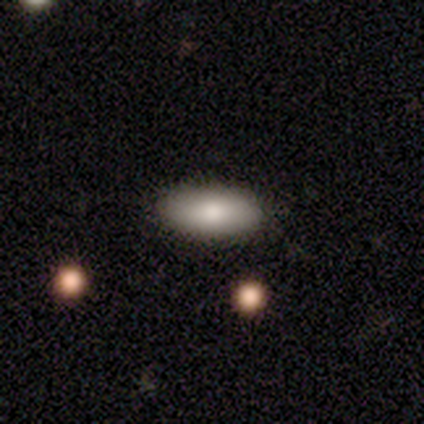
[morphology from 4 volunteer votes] type=smooth (100%); roundness=in between (100%); merging=none (100%).